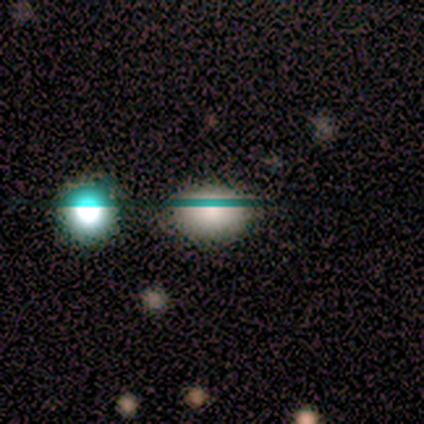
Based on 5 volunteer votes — Smooth or featured: smooth — 80% (star or artifact — 20%)
How rounded: round — 50% (tied with in between — 50%)
Merging: none — 75% (merger — 25%)